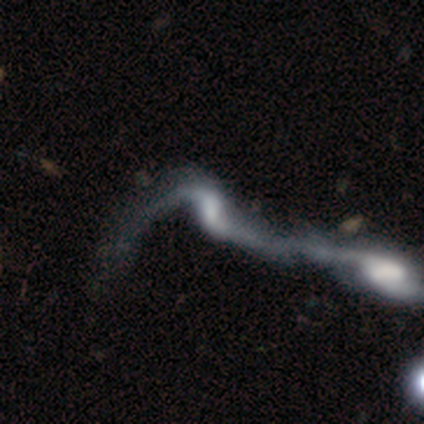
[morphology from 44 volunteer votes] A featured or disk galaxy (82%) with no bar (59%), 2 (85%) loose (100%) spiral arms (79%) and no central bulge (47%). Merging: merger (90%).